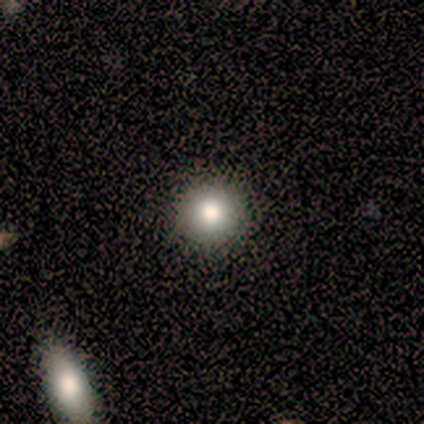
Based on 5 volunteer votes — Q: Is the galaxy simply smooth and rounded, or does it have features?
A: smooth — 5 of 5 (100%).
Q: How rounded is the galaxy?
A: round — 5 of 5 (100%).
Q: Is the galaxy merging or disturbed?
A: none — 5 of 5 (100%).